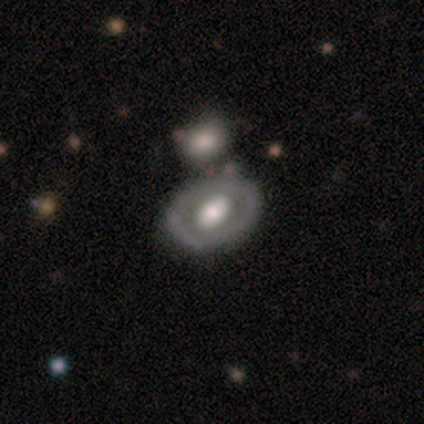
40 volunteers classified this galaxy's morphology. Smooth or featured?
  - featured or disk: 68% *
  - smooth: 28%
  - star or artifact: 5%
Edge-on disk?
  - no: 96% *
  - yes: 4%
Bar?
  - no: 65% *
  - strong: 19%
  - weak: 15%
Spiral arms?
  - no: 88% *
  - yes: 12%
Bulge size?
  - moderate: 46% *
  - large: 42%
  - dominant: 8%
  - small: 4%
  - none: 0%
Merging?
  - none: 50% *
  - minor disturbance: 11%
  - merger: 11%
  - major disturbance: 5%